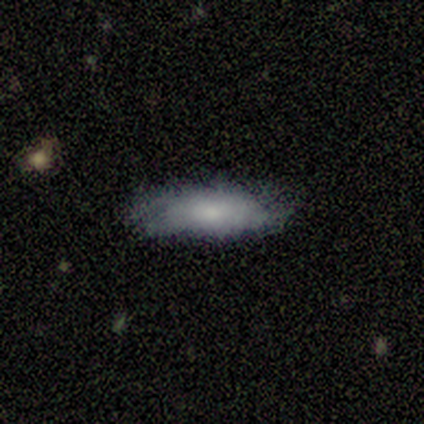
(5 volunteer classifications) A smooth galaxy with no disk features (60%) that is cigar-shaped (67%). Merging: minor disturbance (60%).